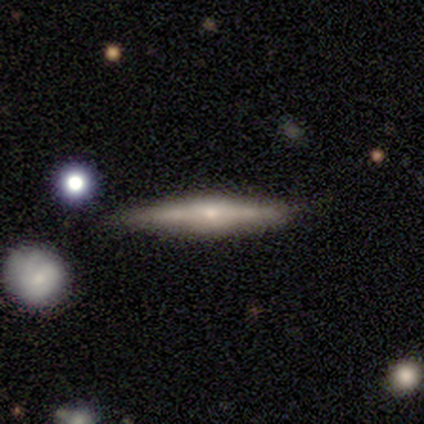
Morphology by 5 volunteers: Smooth or featured?
  - featured or disk: 60% *
  - smooth: 20%
  - star or artifact: 20%
Edge-on disk?
  - yes: 67% *
  - no: 33%
Edge-on bulge?
  - rounded: 100% *
  - boxy: 0%
  - none: 0%
Merging?
  - none: 75% *
  - minor disturbance: 25%
  - major disturbance: 0%
  - merger: 0%